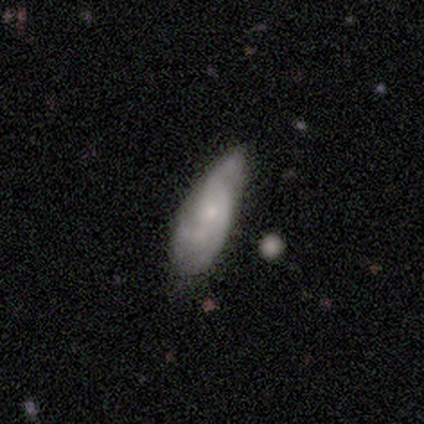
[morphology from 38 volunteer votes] type=featured or disk (74%); edge-on=no (89%); bar=no (76%); spiral arms=yes (80%); winding=medium (45%); arm count=2 (35%, tied with can't tell); bulge=small (76%); merging=none (57%).